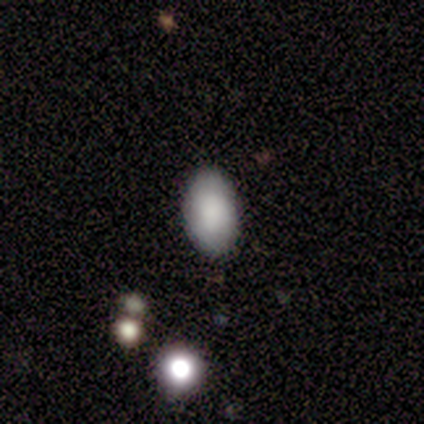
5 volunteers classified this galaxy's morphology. Smooth or featured? smooth (100%)
How rounded? in between (100%)
Merging? none (80%)